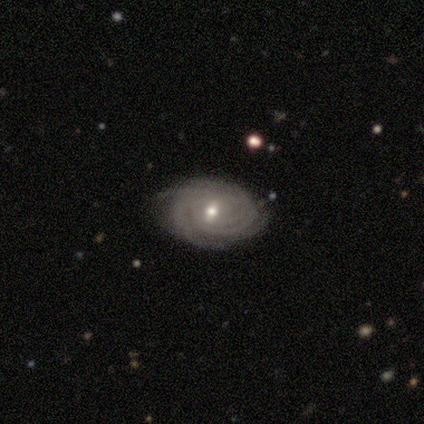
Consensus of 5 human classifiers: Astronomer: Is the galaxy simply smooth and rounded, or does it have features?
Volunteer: featured or disk — 100%.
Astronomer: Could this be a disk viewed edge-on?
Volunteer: no — 100%.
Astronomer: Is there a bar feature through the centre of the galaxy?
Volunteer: weak — 40%, tied with no at 40%.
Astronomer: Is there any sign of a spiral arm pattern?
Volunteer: yes — 100%.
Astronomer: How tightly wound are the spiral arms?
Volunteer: tight — 80%.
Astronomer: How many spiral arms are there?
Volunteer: more than 4 — 60% (runner-up: 4, 40%).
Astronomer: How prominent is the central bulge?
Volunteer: moderate — 60% (runner-up: small, 40%).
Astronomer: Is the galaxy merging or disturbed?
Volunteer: none — 100%.